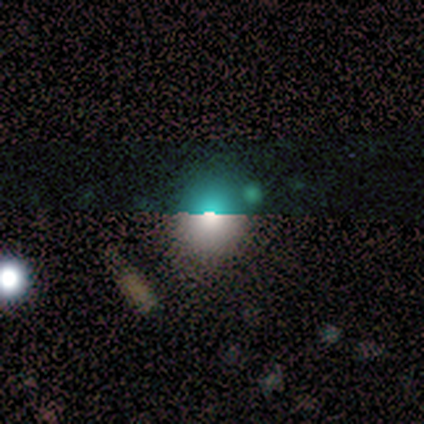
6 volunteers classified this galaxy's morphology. Volunteers were most divided on "smooth or featured": star or artifact: 67%, smooth: 33%, featured or disk: 0%.